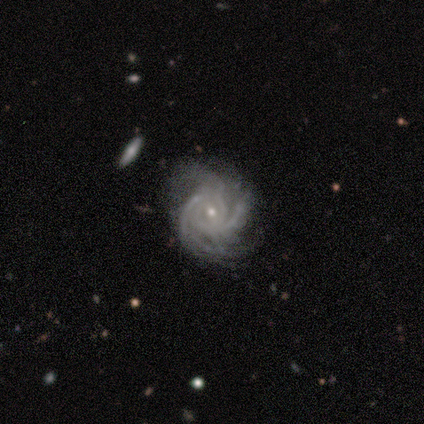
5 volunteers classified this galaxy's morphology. A featured or disk galaxy (100%) with no bar (80%), more than 4 (40%, tied with can't tell) tight (60%) spiral arms (100%) and a small central bulge (60%).

Vote fractions:
- Smooth or featured? featured or disk: 100% / smooth: 0% / star or artifact: 0%
- Edge-on disk? no: 100% / yes: 0%
- Bar? no: 80% / weak: 20% / strong: 0%
- Spiral arms? yes: 100% / no: 0%
- Spiral winding? tight: 60% / medium: 40% / loose: 0%
- Spiral arm count? more than 4: 40% (tied) / can't tell: 40% (tied) / 3: 20% / 1: 0% / 2: 0% / 4: 0%
- Bulge size? small: 60% / moderate: 40% / dominant: 0% / large: 0% / none: 0%
- Merging? none: 40% (tied) / major disturbance: 40% (tied) / minor disturbance: 20% / merger: 0%